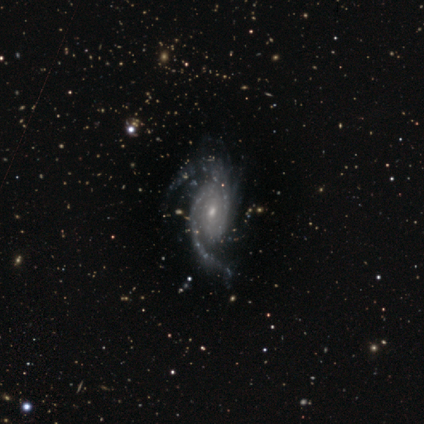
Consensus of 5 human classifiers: Volunteers were most divided on "bar" (2-way tie): weak: 40%, no: 40%, strong: 20%. More confident: smooth or featured — featured or disk (100%); edge-on disk — no (100%); spiral arms — yes (100%); spiral arm count — 2 (100%); spiral winding — medium (80%); bulge size — small (80%); merging — none (60%).